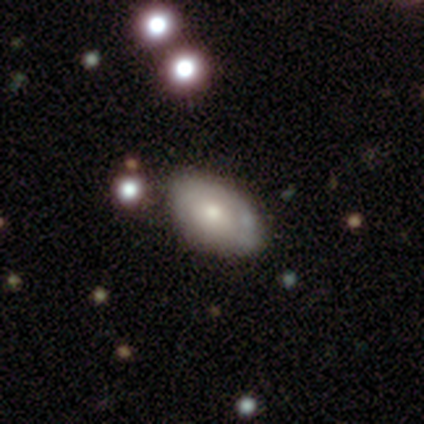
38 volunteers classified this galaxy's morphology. type=smooth (61%); roundness=in between (91%); merging=none (63%).